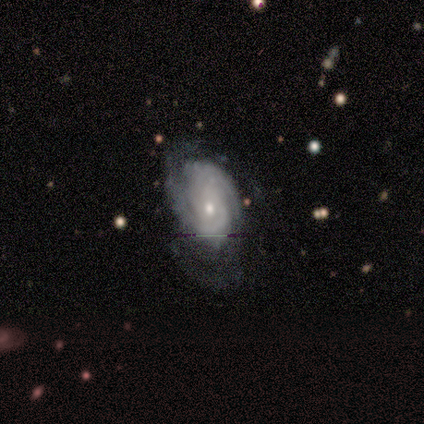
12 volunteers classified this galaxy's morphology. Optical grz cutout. It shows a featured or disk galaxy (92%) with no bar (91%), 2 (36%, tied with 3) tight (64%) spiral arms (100%) and a small central bulge (73%). Merging: none (55%).